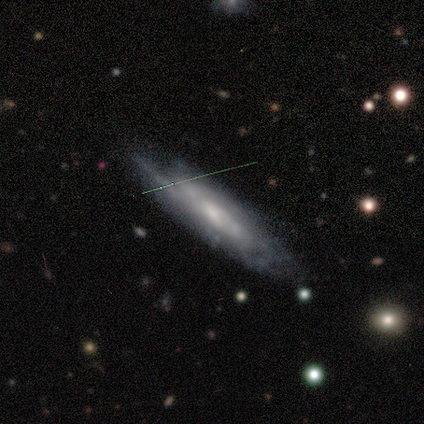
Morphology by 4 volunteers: Volunteers were most divided on "bar" (2-way tie): weak: 50%, no: 50%, strong: 0%; "spiral winding" (2-way tie): tight: 50%, medium: 50%, loose: 0%; "bulge size" (2-way tie): moderate: 50%, small: 50%, dominant: 0%, large: 0%, none: 0%. More confident: spiral arms — yes (100%); spiral arm count — 2 (100%); merging — none (100%); smooth or featured — featured or disk (75%); edge-on disk — no (67%).